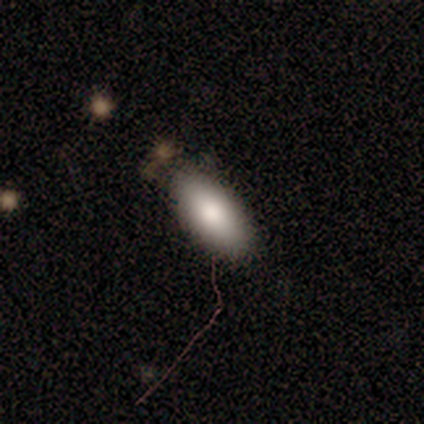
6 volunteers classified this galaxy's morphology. Q: Smooth or featured?
A: smooth (100%)
Q: How rounded?
A: in between (83%); runner-up: cigar-shaped (17%)
Q: Merging?
A: none (83%); runner-up: minor disturbance (17%)